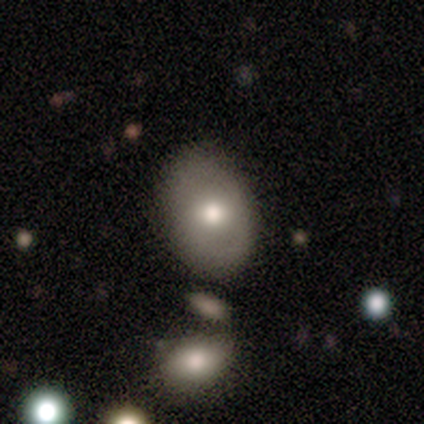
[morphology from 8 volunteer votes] Smooth or featured: smooth — 75% (featured or disk — 25%)
How rounded: in between — 83% (round — 17%)
Merging: none — 75% (minor disturbance — 25%)